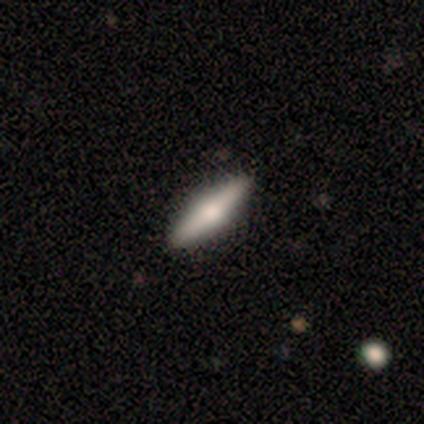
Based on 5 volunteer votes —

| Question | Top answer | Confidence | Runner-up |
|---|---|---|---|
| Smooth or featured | featured or disk | 60% | smooth (40%) |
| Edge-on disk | yes | 100% | — |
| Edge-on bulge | rounded | 100% | — |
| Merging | none | 100% | — |